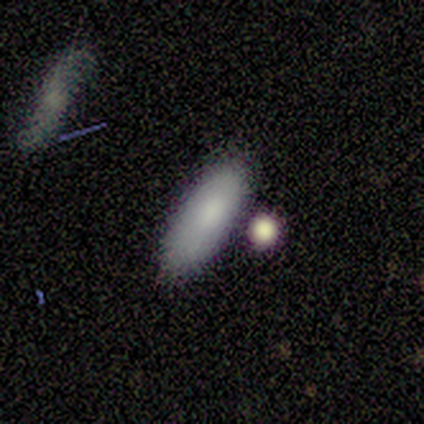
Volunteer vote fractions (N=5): Q: Smooth or featured?
A: smooth (80%); runner-up: featured or disk (20%)
Q: How rounded?
A: in between (50%); tied with: cigar-shaped (50%)
Q: Merging?
A: none (100%)